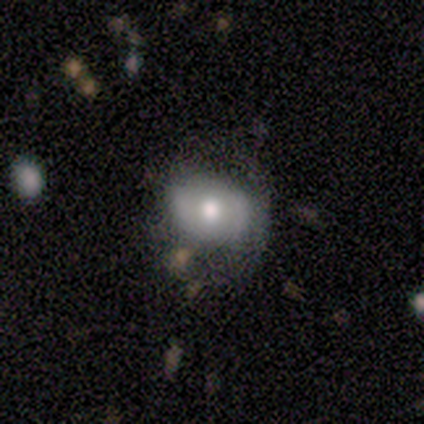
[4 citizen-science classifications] Smooth or featured? 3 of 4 (75%) said featured or disk. Edge-on disk? 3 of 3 (100%) said no. Bar? 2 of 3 (67%) said no. Spiral arms? 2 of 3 (67%) said no. Bulge size? 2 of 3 (67%) said moderate. Merging? 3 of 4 (75%) said minor disturbance.